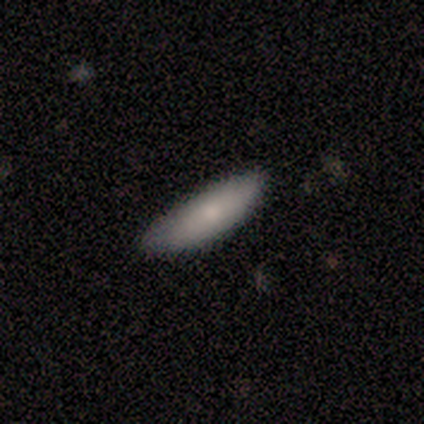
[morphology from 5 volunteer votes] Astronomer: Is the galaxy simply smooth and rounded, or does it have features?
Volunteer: smooth — 80%.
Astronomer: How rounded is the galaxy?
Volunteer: cigar-shaped — 75%.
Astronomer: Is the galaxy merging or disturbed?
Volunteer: none — 100%.